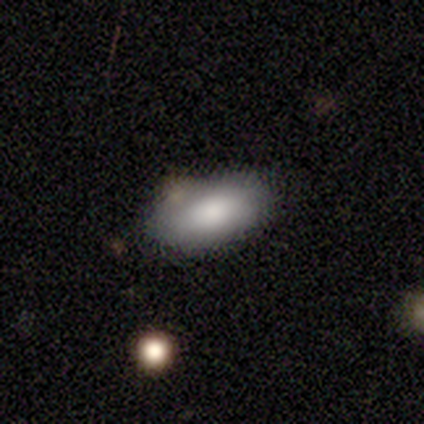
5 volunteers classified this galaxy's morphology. Smooth or featured? smooth (80%)
How rounded? in between (100%)
Merging? none (60%)